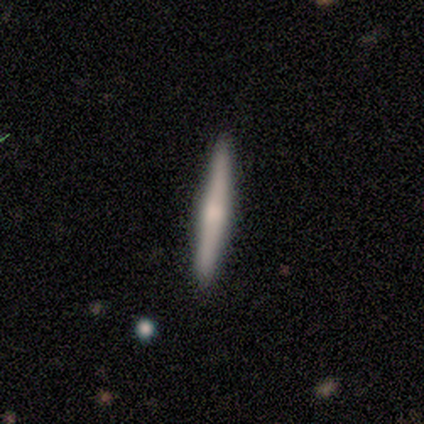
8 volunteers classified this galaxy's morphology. type=smooth (50%, tied with featured or disk); roundness=cigar-shaped (100%); merging=none (88%).